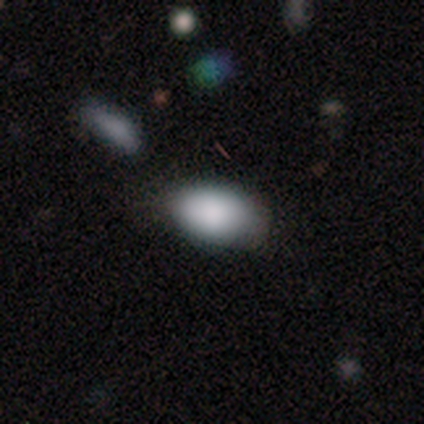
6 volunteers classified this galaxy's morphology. Smooth or featured? 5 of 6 (83%) said smooth. How rounded? 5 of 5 (100%) said in between. Merging? 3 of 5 (60%) said none.